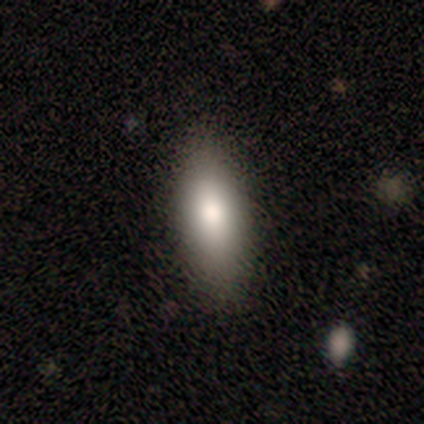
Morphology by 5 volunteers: Volunteers were most divided on "merging": none: 60%, minor disturbance: 40%, major disturbance: 0%, merger: 0%. More confident: smooth or featured — smooth (100%); how rounded — in between (80%).